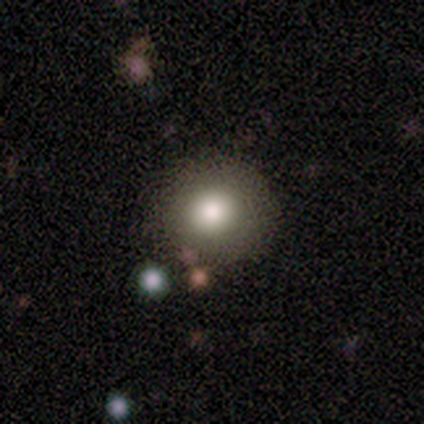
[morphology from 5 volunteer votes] This is clearly a smooth galaxy (80%). How rounded: clearly round (100%). Merging: clearly none (80%).